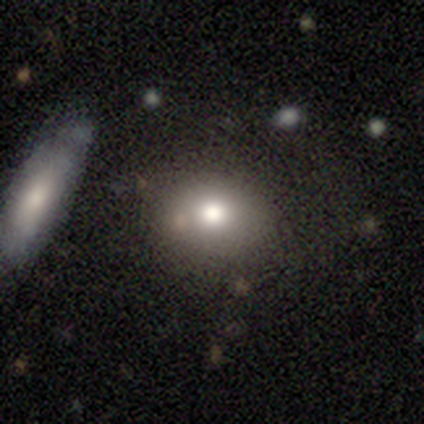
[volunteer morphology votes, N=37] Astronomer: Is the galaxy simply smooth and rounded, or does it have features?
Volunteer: smooth — 84%.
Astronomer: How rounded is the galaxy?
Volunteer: round — 58% (runner-up: in between, 42%).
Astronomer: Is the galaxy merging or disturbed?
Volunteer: none — 88%.